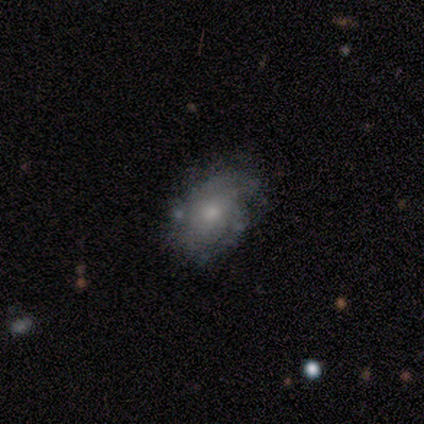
featured or disk 80%, smooth 20%, star or artifact 0%. Down the decision tree: edge-on disk — no (75%); bar — no (100%); spiral arms — yes (67%); spiral arm count — 2 (100%); spiral winding — tight (50%, tied with medium); bulge size — moderate (67%); merging — none (40%, tied with minor disturbance).